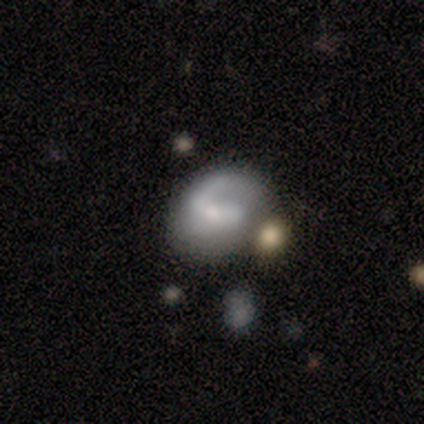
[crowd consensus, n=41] Smooth or featured: featured or disk — 76% (smooth — 20%)
Edge-on disk: no — 97% (yes — 3%)
Bar: no — 50% (weak — 40%)
Spiral arms: yes — 83% (no — 17%)
Spiral winding: loose — 52% (tight — 28%)
Spiral arm count: 2 — 52% (1 — 36%)
Bulge size: moderate — 53% (small — 27%)
Merging: minor disturbance — 33% (none — 31%)